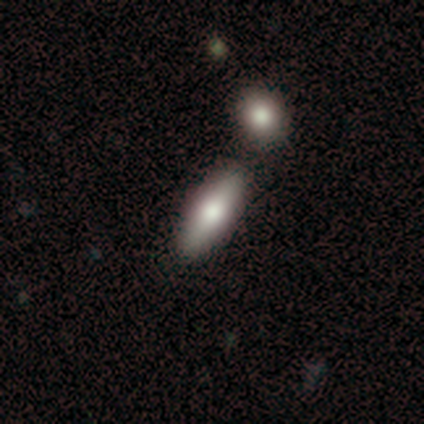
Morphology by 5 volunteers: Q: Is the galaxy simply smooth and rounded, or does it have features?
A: smooth — 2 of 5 (40%, tied with featured or disk).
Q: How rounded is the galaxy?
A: in between — 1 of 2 (50%, tied with cigar-shaped).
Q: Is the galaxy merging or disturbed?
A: merger — 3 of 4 (75%).